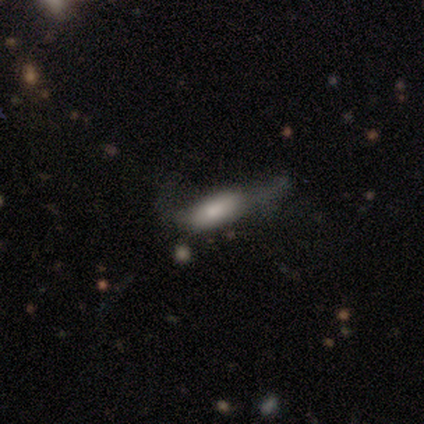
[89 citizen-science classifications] Smooth or featured?
  - smooth: 67% *
  - featured or disk: 22%
  - star or artifact: 10%
How rounded?
  - in between: 58% *
  - cigar-shaped: 40%
  - round: 2%
Merging?
  - major disturbance: 41% *
  - minor disturbance: 34%
  - none: 20%
  - merger: 5%